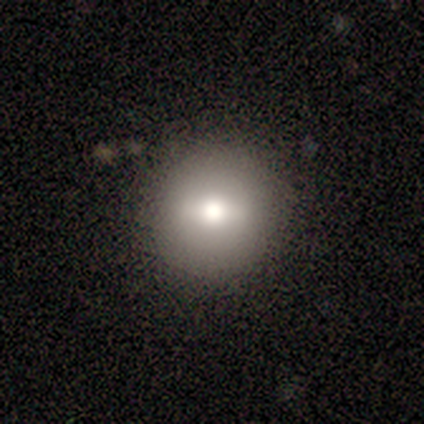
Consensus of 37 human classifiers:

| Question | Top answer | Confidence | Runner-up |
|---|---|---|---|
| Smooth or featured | smooth | 62% | featured or disk (27%) |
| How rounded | round | 91% | in between (9%) |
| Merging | none | 85% | minor disturbance (12%) |